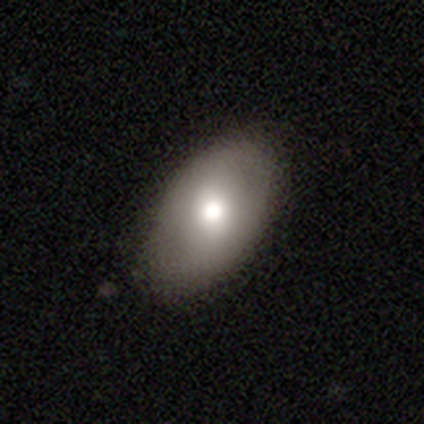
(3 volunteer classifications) A smooth galaxy with no disk features (100%) that is in between round and cigar-shaped (100%).

Vote fractions:
- Smooth or featured? smooth: 100% / featured or disk: 0% / star or artifact: 0%
- How rounded? in between: 100% / round: 0% / cigar-shaped: 0%
- Merging? none: 100% / minor disturbance: 0% / major disturbance: 0% / merger: 0%